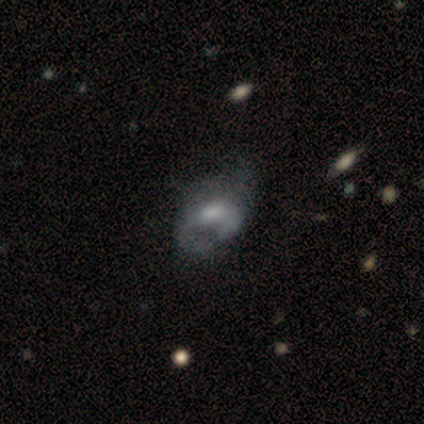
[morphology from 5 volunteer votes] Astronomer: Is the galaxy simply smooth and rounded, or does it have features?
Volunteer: featured or disk — 60%.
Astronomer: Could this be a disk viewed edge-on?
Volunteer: no — 67%.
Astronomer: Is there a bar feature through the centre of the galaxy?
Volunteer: weak — 50%, tied with no at 50%.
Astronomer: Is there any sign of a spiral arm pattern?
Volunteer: no — 100%.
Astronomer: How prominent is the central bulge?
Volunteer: moderate — 50%, tied with none at 50%.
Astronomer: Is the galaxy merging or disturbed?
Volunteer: none — 50%, tied with major disturbance at 50%.